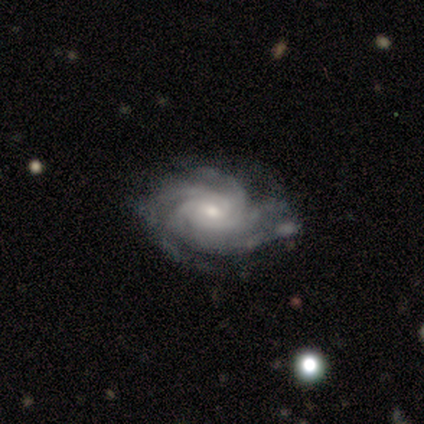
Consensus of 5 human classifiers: smooth_or_featured: featured or disk (p=1.00)
disk_edge_on: no (p=1.00)
bar: no (p=0.80) [alt: weak p=0.20]
has_spiral_arms: yes (p=1.00)
spiral_winding: tight (p=0.80) [alt: medium p=0.20]
spiral_arm_count: more than 4 (p=0.60) [alt: 4 p=0.20]
bulge_size: moderate (p=0.80) [alt: small p=0.20]
merging: none (p=0.80) [alt: major disturbance p=0.20]